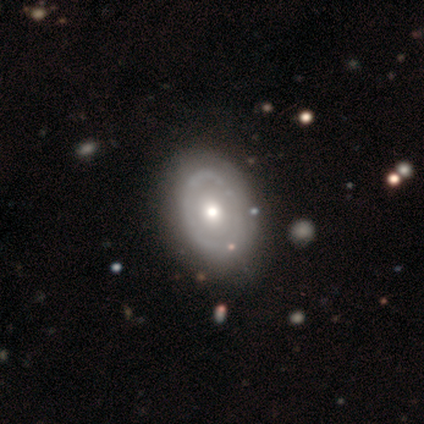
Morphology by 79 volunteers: smooth_or_featured: featured or disk (p=0.59) [alt: smooth p=0.39]
disk_edge_on: no (p=0.98) [alt: yes p=0.02]
bar: no (p=0.98) [alt: strong p=0.02]
has_spiral_arms: no (p=0.96) [alt: yes p=0.04]
bulge_size: moderate (p=0.76) [alt: small p=0.15]
merging: none (p=0.68) [alt: minor disturbance p=0.17]